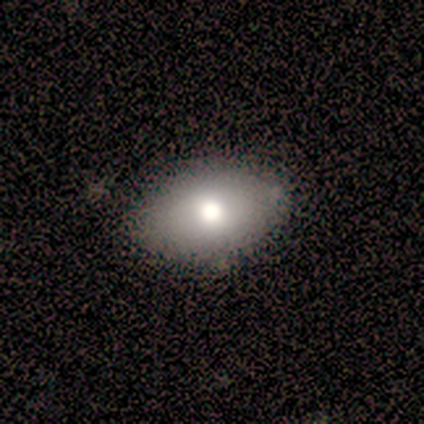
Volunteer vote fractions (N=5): Morphology: type=featured or disk (60%); edge-on=no (100%); bar=no (100%); spiral arms=no (100%); bulge=moderate (100%); merging=none (100%).